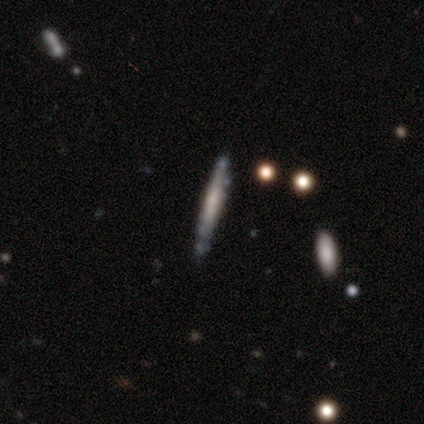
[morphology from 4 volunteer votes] Smooth or featured: featured or disk — 75% (smooth — 25%)
Edge-on disk: yes — 100%
Edge-on bulge: none — 100%
Merging: none — 100%